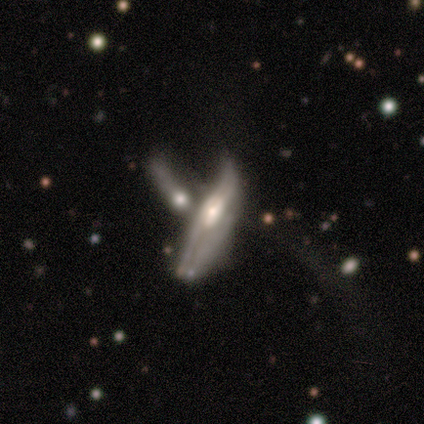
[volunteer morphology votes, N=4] Smooth or featured? smooth (50%)
How rounded? cigar-shaped (100%)
Merging? merger (100%)